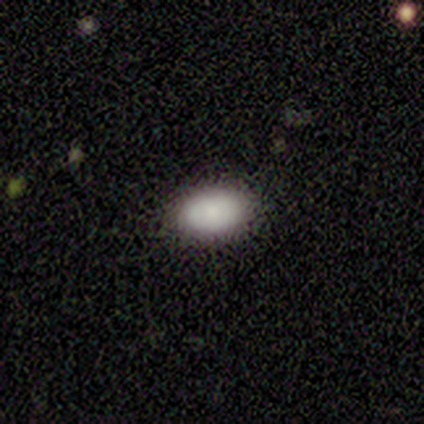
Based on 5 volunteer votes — Morphology: type=smooth (80%); roundness=in between (100%); merging=none (100%).